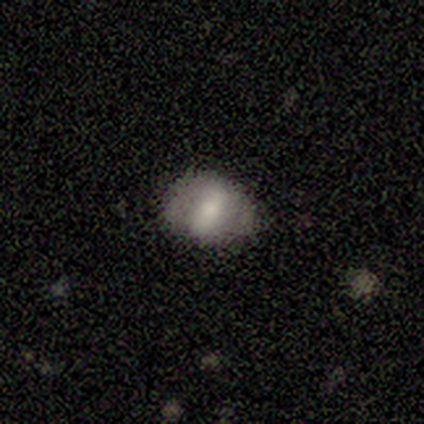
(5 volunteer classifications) Smooth or featured? 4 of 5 (80%) said smooth. How rounded? 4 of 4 (100%) said in between. Merging? 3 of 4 (75%) said none.